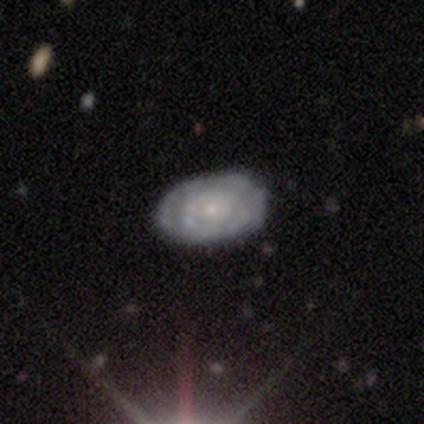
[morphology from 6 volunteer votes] Volunteers were most divided on "spiral arm count": can't tell: 67%, 3: 33%, 1: 0%, 2: 0%, 4: 0%, more than 4: 0%. More confident: edge-on disk — no (100%); spiral winding — tight (100%); merging — none (100%); bar — no (75%); spiral arms — yes (75%); bulge size — small (75%); smooth or featured — featured or disk (67%).